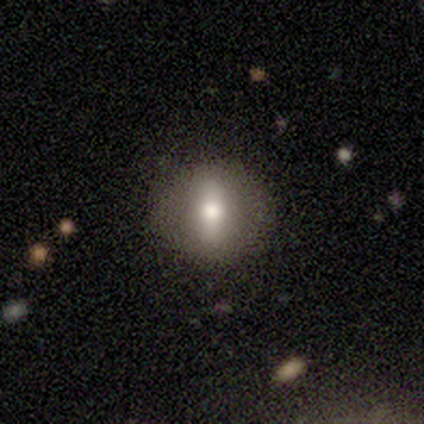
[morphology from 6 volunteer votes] Q: Smooth or featured?
A: smooth (50%); runner-up: star or artifact (33%)
Q: How rounded?
A: in between (67%); runner-up: round (33%)
Q: Merging?
A: none (75%); runner-up: merger (25%)